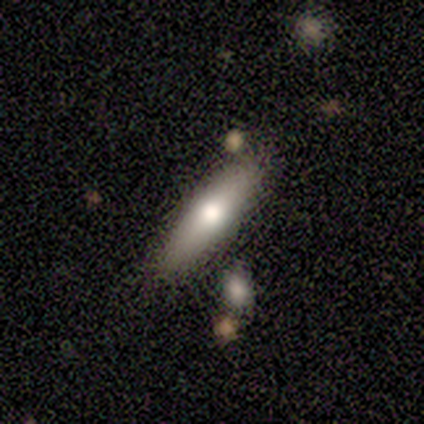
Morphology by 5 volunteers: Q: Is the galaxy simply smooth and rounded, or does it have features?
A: smooth — 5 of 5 (100%).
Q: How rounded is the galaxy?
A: cigar-shaped — 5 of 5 (100%).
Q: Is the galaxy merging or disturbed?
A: none — 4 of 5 (80%).